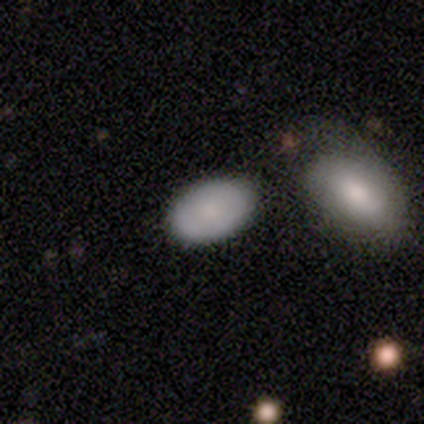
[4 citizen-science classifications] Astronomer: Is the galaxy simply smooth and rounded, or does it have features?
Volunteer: smooth — 75%.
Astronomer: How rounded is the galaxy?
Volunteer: round — 33%, tied with in between and cigar-shaped at 33%.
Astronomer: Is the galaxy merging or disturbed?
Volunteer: none — 100%.